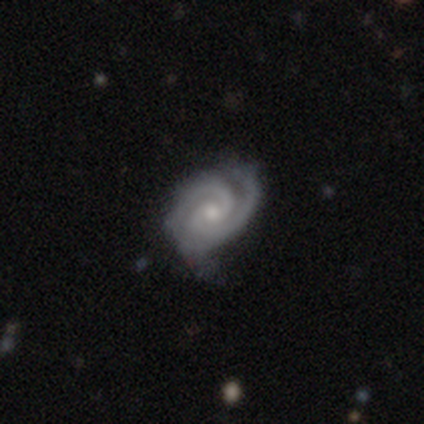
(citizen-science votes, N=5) This is clearly a featured or disk galaxy (80%). It is clearly not viewed edge-on (100%). Bar: possibly weak (50%, tied with no). Spiral arm pattern: clearly yes (100%). Spiral arm count: likely 2 (75%). Spiral winding: clearly tight (100%). Central bulge: likely moderate (75%). Merging: clearly none (80%).